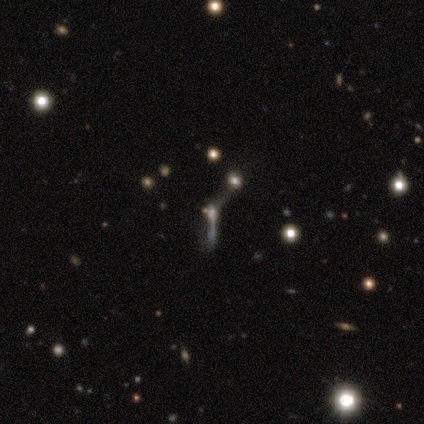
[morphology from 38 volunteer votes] A star or artifact, not a galaxy (47%).